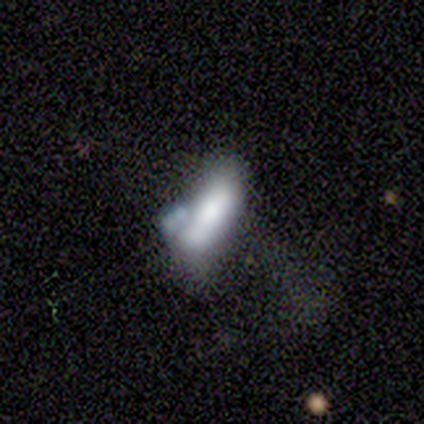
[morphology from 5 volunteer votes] type=featured or disk (60%); edge-on=yes (67%); edge-on bulge=boxy (50%, tied with none); merging=merger (60%).